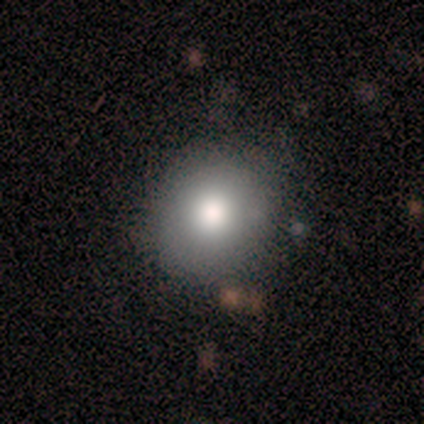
Smooth or featured?
  - smooth: 100% *
  - featured or disk: 0%
  - star or artifact: 0%
How rounded?
  - round: 100% *
  - in between: 0%
  - cigar-shaped: 0%
Merging?
  - none: 100% *
  - minor disturbance: 0%
  - major disturbance: 0%
  - merger: 0%